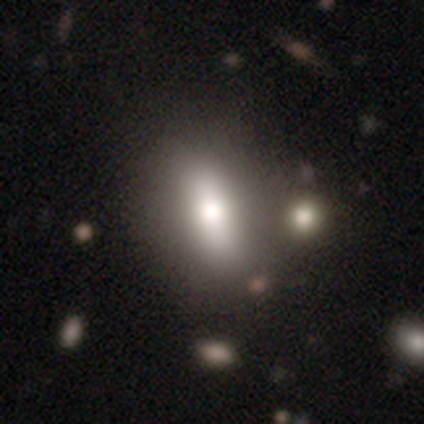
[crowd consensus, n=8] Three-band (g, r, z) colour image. It shows a smooth galaxy with no disk features (62%) that is in between round and cigar-shaped (80%). Merging: none (71%).